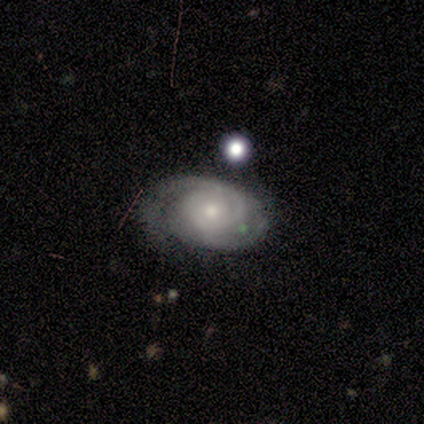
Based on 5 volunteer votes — Smooth or featured: featured or disk — 80% (star or artifact — 20%)
Edge-on disk: no — 100%
Bar: strong — 50% (tied with no — 50%)
Spiral arms: yes — 100%
Spiral winding: tight — 50% (tied with medium — 50%)
Spiral arm count: 2 — 75% (3 — 25%)
Bulge size: moderate — 75% (small — 25%)
Merging: none — 100%